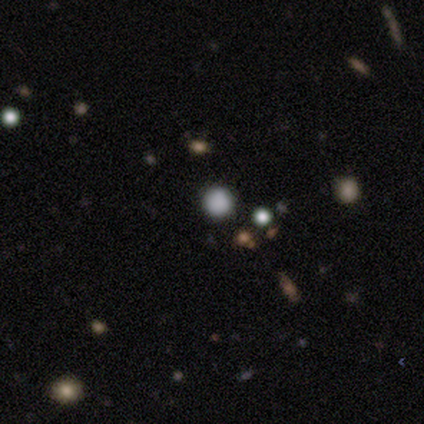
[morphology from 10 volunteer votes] Smooth or featured? smooth (60%)
How rounded? round (100%)
Merging? none (83%)